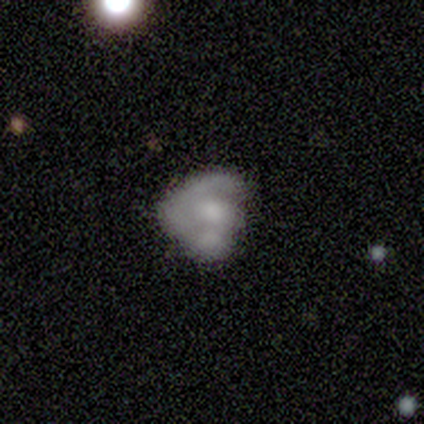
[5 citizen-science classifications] Q: Smooth or featured?
A: smooth (40%); tied with: featured or disk (40%)
Q: How rounded?
A: round (100%)
Q: Merging?
A: none (75%); runner-up: minor disturbance (25%)